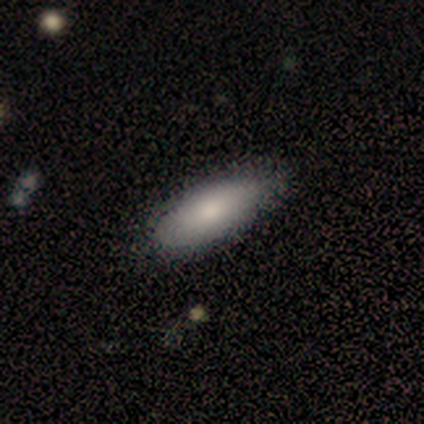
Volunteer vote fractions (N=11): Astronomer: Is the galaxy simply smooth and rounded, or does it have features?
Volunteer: smooth — 64%.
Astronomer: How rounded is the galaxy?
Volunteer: in between — 86%.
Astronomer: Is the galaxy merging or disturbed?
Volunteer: none — 89%.